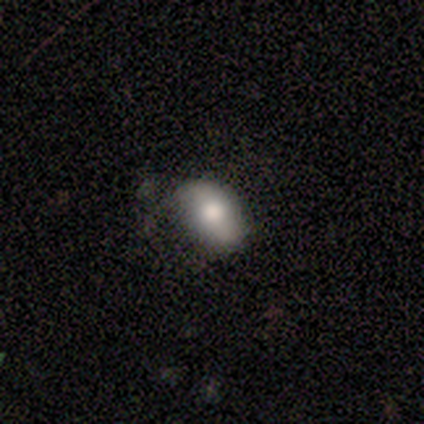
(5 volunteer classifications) Overall: smooth (80%). How rounded: in between (100%). Merging: none (100%).